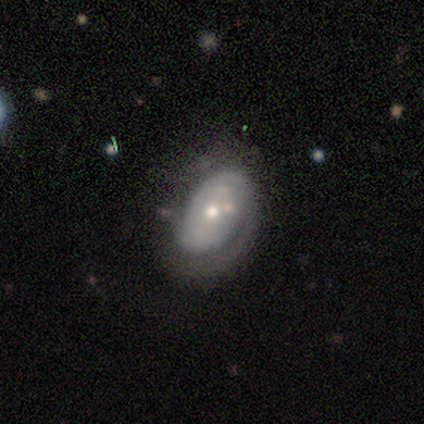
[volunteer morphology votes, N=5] Smooth or featured? featured or disk (100%)
Edge-on disk? no (100%)
Bar? no (100%)
Spiral arms? yes (80%)
Spiral winding? tight (75%)
Spiral arm count? can't tell (75%)
Bulge size? moderate (60%)
Merging? none (100%)